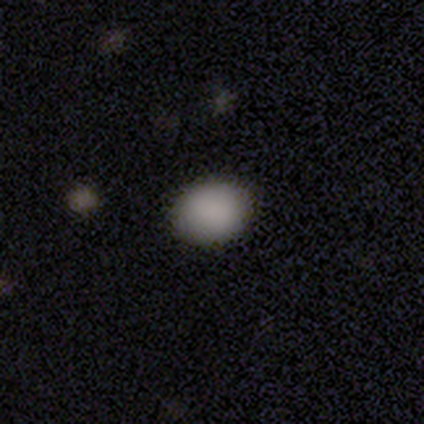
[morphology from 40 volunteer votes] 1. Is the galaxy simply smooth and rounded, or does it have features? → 95% smooth, 2% featured or disk, 2% star or artifact.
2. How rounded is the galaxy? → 61% in between, 39% round, 0% cigar-shaped.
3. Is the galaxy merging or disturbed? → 74% none, 3% minor disturbance, 3% major disturbance, 0% merger.